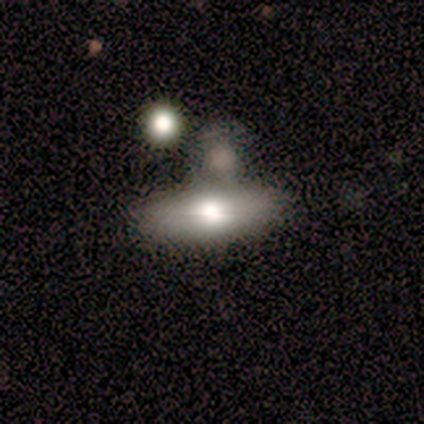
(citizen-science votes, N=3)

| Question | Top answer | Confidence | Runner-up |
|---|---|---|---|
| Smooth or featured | smooth | 100% | — |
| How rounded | round | 33% | tied: in between (33%), cigar-shaped (33%) |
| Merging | merger | 67% | minor disturbance (33%) |